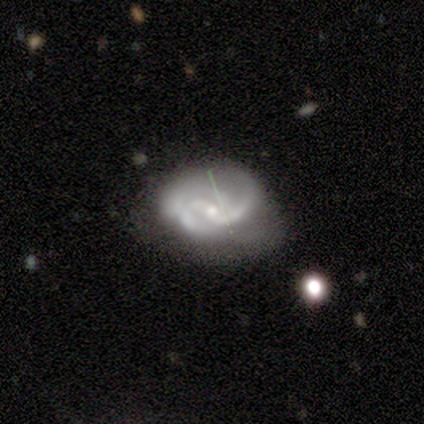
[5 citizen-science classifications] A featured or disk galaxy (80%) with a weak bar (50%, tied with no), 2 (50%) tight (75%) spiral arms (100%) and a small central bulge (75%).

Vote fractions:
- Smooth or featured? featured or disk: 80% / smooth: 20% / star or artifact: 0%
- Edge-on disk? no: 100% / yes: 0%
- Bar? weak: 50% (tied) / no: 50% (tied) / strong: 0%
- Spiral arms? yes: 100% / no: 0%
- Spiral winding? tight: 75% / medium: 25% / loose: 0%
- Spiral arm count? 2: 50% / 4: 25% / can't tell: 25% / 1: 0% / 3: 0% / more than 4: 0%
- Bulge size? small: 75% / moderate: 25% / dominant: 0% / large: 0% / none: 0%
- Merging? none: 80% / minor disturbance: 20% / major disturbance: 0% / merger: 0%